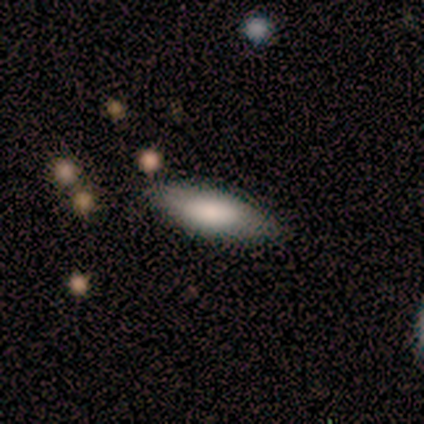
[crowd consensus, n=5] This is clearly a smooth galaxy (80%). How rounded: likely cigar-shaped (75%). Merging: clearly none (100%).